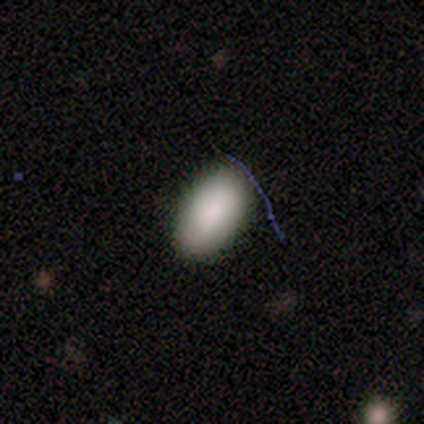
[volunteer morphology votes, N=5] Smooth or featured? smooth (100%)
How rounded? in between (100%)
Merging? none (100%)